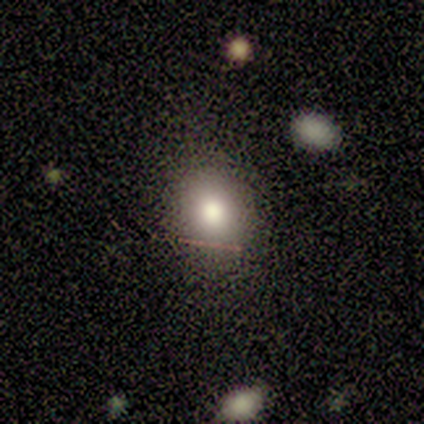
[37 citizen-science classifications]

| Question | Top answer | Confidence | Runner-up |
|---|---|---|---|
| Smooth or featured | smooth | 70% | featured or disk (16%) |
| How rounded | in between | 58% | round (42%) |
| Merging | none | 75% | minor disturbance (22%) |